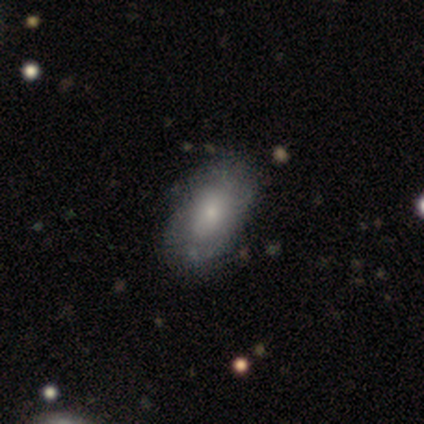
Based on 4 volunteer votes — Smooth or featured? 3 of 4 (75%) said smooth. How rounded? 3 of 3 (100%) said in between. Merging? 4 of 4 (100%) said none.